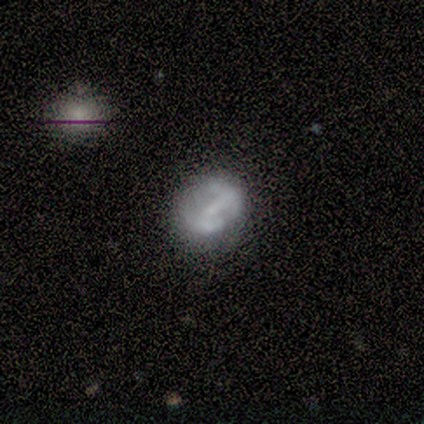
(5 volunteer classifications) Q: Smooth or featured?
A: featured or disk (80%); runner-up: star or artifact (20%)
Q: Edge-on disk?
A: no (75%); runner-up: yes (25%)
Q: Bar?
A: strong (67%); runner-up: no (33%)
Q: Spiral arms?
A: no (67%); runner-up: yes (33%)
Q: Bulge size?
A: small (67%); runner-up: none (33%)
Q: Merging?
A: none (75%); runner-up: minor disturbance (25%)